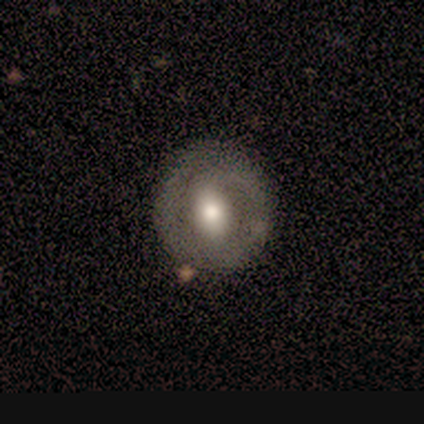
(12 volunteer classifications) This appears to be a featured or disk galaxy (50%) with no bar (67%), 2 (100%) tight (67%) spiral arms (50%, tied with no) and a moderate central bulge (67%). Merging: none (91%).